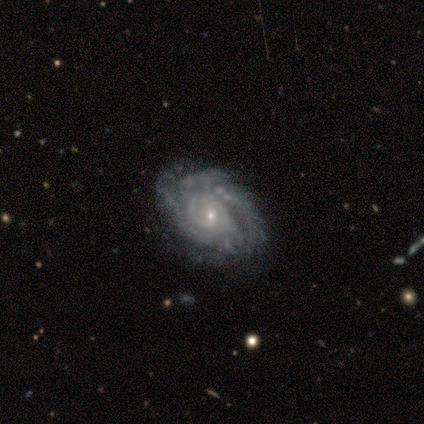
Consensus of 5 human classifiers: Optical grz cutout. It shows a featured or disk galaxy (100%) with no bar (80%), tight (60%) spiral arms (100%) and a small central bulge (100%). Merging: none (80%).